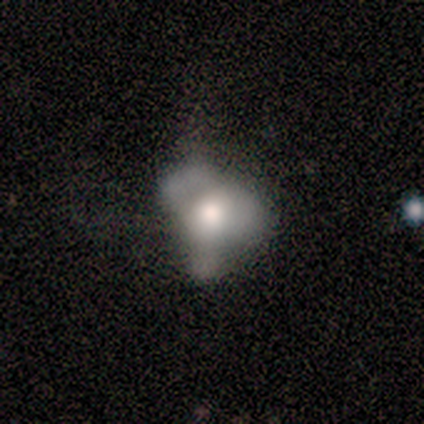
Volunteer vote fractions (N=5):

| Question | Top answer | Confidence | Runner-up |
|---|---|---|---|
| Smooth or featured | smooth | 60% | featured or disk (40%) |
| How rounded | in between | 67% | round (33%) |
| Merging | major disturbance | 60% | none (40%) |